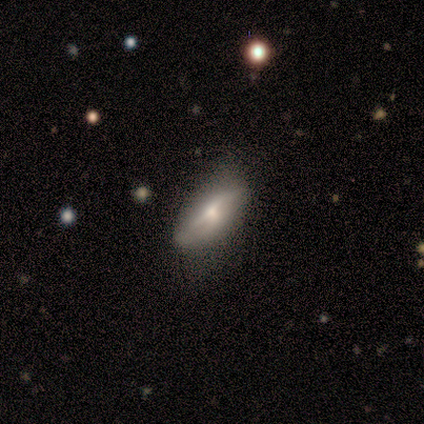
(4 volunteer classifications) featured or disk 75%, smooth 25%, star or artifact 0%. Down the decision tree: edge-on disk — yes (67%); edge-on bulge — rounded (100%); merging — minor disturbance (75%).